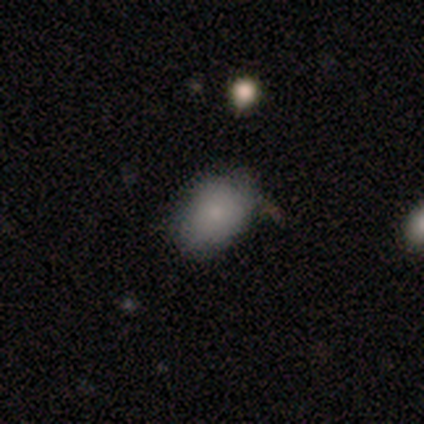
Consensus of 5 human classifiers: A smooth galaxy with no disk features (100%) that is in between round and cigar-shaped (80%).

Vote fractions:
- Smooth or featured? smooth: 100% / featured or disk: 0% / star or artifact: 0%
- How rounded? in between: 80% / round: 20% / cigar-shaped: 0%
- Merging? none: 60% / minor disturbance: 20% / major disturbance: 20% / merger: 0%